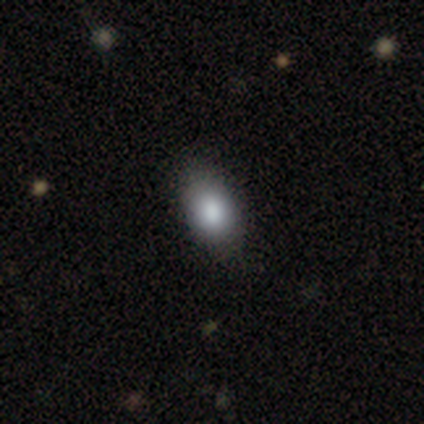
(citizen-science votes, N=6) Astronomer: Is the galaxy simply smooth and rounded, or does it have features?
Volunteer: smooth — 100%.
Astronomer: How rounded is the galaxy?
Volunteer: in between — 100%.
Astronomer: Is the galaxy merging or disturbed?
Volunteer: none — 100%.